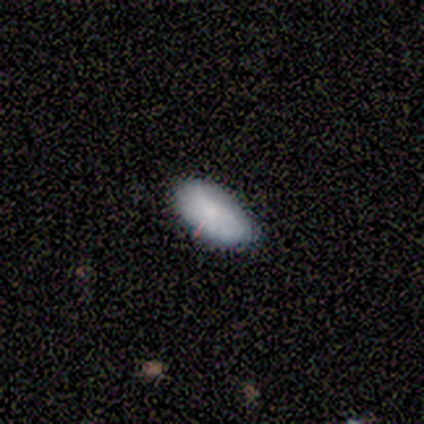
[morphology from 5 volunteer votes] smooth_or_featured: smooth (p=1.00)
how_rounded: in between (p=1.00)
merging: none (p=0.80) [alt: minor disturbance p=0.20]